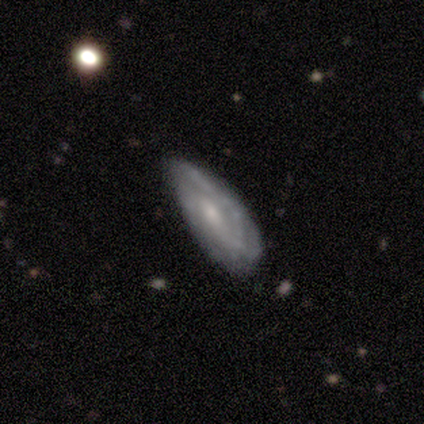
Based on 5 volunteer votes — smooth-or-featured: featured or disk: 80% | smooth: 20% | star or artifact: 0%
  disk-edge-on: no: 100% | yes: 0%
    bar: weak: 50% (tied) | no: 50% (tied) | strong: 0%
    has-spiral-arms: yes: 100% | no: 0%
      spiral-winding: loose: 75% | tight: 25% | medium: 0%
      spiral-arm-count: can't tell: 50% | 1: 25% | 3: 25% | 2: 0% | 4: 0% | more than 4: 0%
    bulge-size: small: 100% | dominant: 0% | large: 0% | moderate: 0% | none: 0%
  merging: minor disturbance: 80% | none: 20% | major disturbance: 0% | merger: 0%